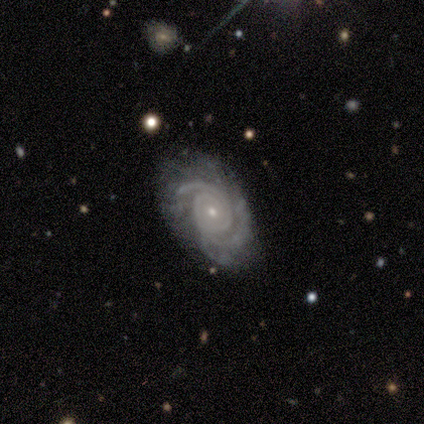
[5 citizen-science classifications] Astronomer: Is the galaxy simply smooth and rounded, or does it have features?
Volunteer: featured or disk — 100%.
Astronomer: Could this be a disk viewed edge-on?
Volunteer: no — 100%.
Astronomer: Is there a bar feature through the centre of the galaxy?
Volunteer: no — 100%.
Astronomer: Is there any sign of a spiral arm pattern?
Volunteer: yes — 100%.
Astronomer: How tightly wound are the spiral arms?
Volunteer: tight — 60% (runner-up: medium, 40%).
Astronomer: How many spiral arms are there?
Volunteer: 3 — 40%, tied with can't tell at 40%.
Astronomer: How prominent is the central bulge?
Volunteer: small — 80%.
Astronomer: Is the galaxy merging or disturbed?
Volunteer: none — 60% (runner-up: minor disturbance, 40%).